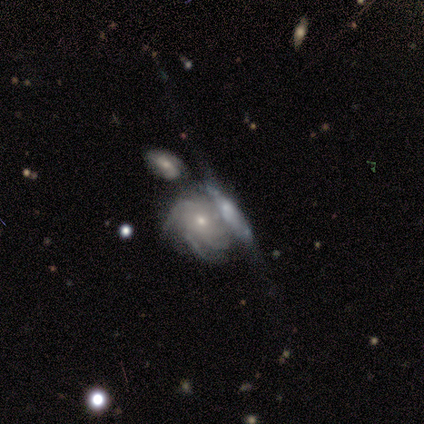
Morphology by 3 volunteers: Overall: featured or disk (100%). Edge-on disk: no (100%). Bar: no (67%; weak 33%). Spiral arms: yes (67%; no 33%). Spiral arm count: 2 (50%, tied with 3). Spiral winding: medium (100%). Bulge size: moderate (67%; small 33%). Merging: merger (67%; minor disturbance 33%).